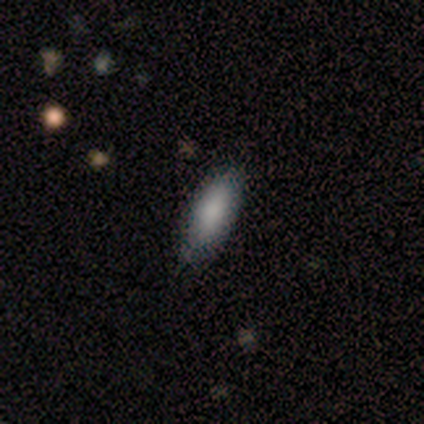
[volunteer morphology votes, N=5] Smooth or featured: smooth — 100%
How rounded: in between — 80% (cigar-shaped — 20%)
Merging: none — 60% (minor disturbance — 20%)